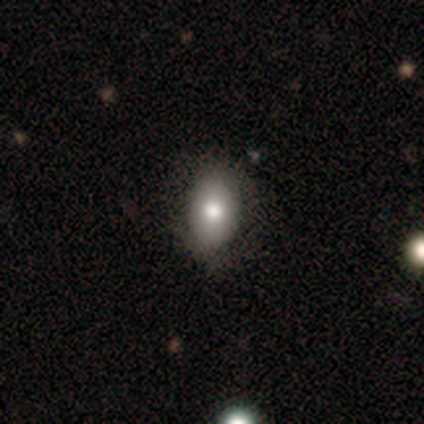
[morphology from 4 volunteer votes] Overall: smooth (75%). How rounded: in between (100%). Merging: none (75%).